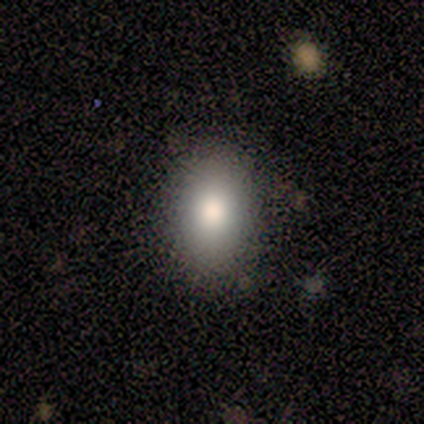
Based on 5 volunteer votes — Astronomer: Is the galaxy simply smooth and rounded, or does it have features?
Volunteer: smooth — 80%.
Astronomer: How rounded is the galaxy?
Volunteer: in between — 75%.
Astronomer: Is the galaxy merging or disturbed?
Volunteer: none — 100%.